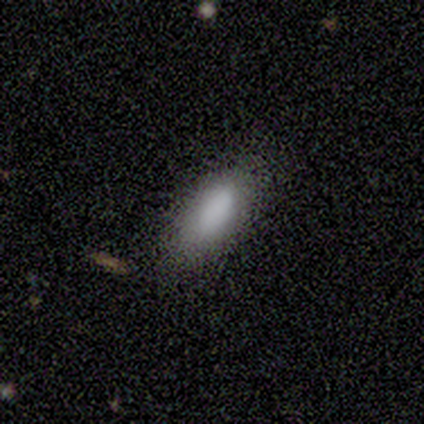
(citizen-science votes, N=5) Volunteers were most divided on "merging" (2-way tie): none: 40%, minor disturbance: 40%, major disturbance: 20%, merger: 0%. More confident: smooth or featured — smooth (100%); how rounded — in between (80%).